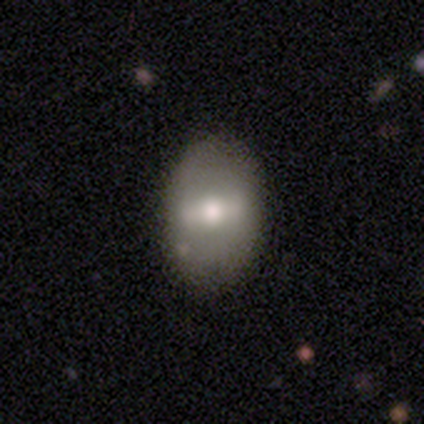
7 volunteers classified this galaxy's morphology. featured or disk 57%, smooth 29%, star or artifact 14%. Down the decision tree: edge-on disk — no (75%); bar — strong (67%); spiral arms — no (67%); bulge size — moderate (67%); merging — none (100%).